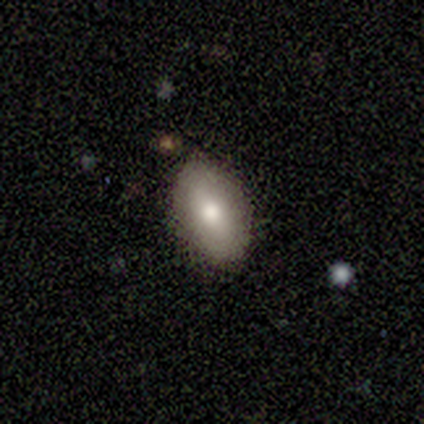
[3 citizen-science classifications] A smooth galaxy with no disk features (100%) that is in between round and cigar-shaped (67%).

Vote fractions:
- Smooth or featured? smooth: 100% / featured or disk: 0% / star or artifact: 0%
- How rounded? in between: 67% / round: 33% / cigar-shaped: 0%
- Merging? none: 100% / minor disturbance: 0% / major disturbance: 0% / merger: 0%